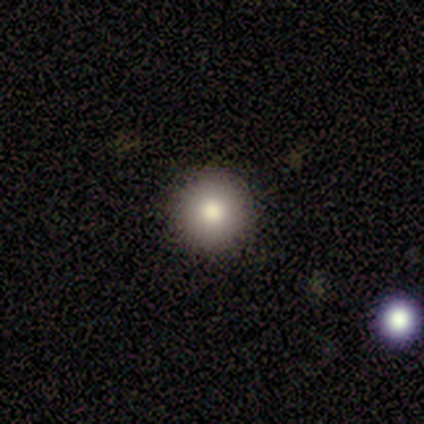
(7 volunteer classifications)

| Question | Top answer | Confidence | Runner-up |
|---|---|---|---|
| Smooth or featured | smooth | 86% | featured or disk (14%) |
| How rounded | round | 83% | in between (17%) |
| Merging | none | 100% | — |